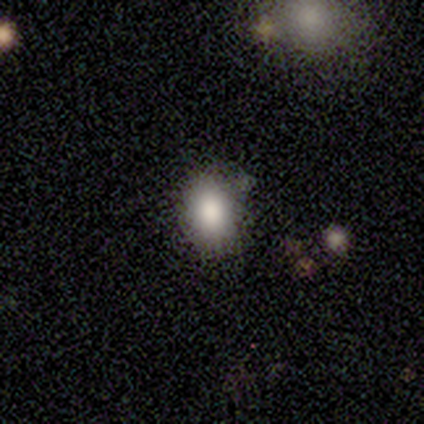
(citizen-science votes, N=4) Volunteers were most divided on "how rounded" (2-way tie): round: 50%, in between: 50%, cigar-shaped: 0%. More confident: smooth or featured — smooth (100%); merging — none (75%).